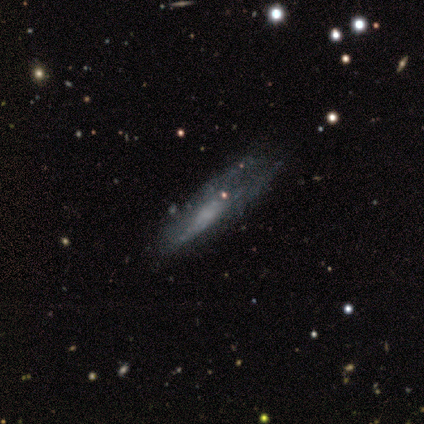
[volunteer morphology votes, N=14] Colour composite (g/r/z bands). It shows a featured or disk galaxy (57%) with no bar (100%), no spiral arms (83%) and a small central bulge (67%). Merging: major disturbance (69%).